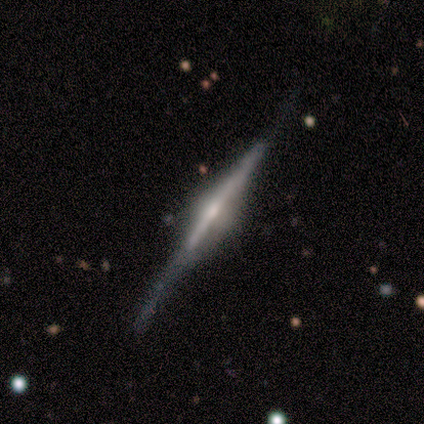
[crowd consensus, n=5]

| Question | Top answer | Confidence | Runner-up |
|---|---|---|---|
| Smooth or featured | featured or disk | 100% | — |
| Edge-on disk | yes | 100% | — |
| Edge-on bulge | rounded | 60% | boxy (40%) |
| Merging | none | 60% | minor disturbance (40%) |